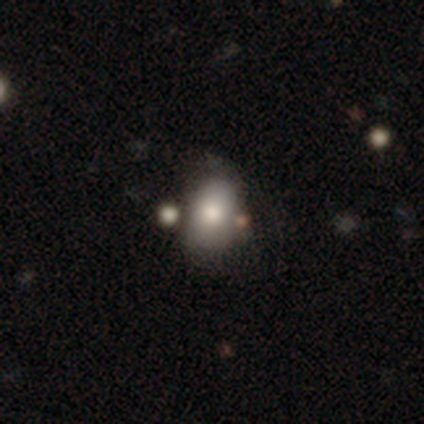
A smooth galaxy with no disk features (74%) that is in between round and cigar-shaped (77%).

Vote fractions:
- Smooth or featured? smooth: 74% / featured or disk: 16% / star or artifact: 11%
- How rounded? in between: 77% / round: 21% / cigar-shaped: 1%
- Merging? none: 58% / minor disturbance: 32% / major disturbance: 7% / merger: 4%